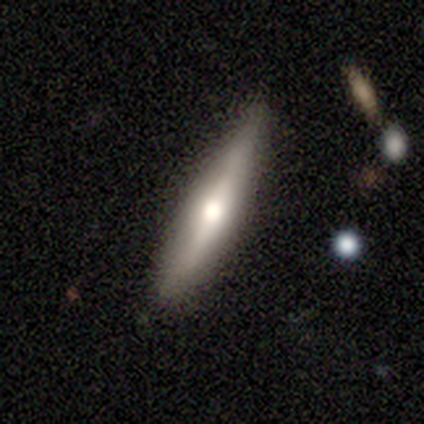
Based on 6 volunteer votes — Smooth or featured? smooth (67%)
How rounded? cigar-shaped (75%)
Merging? none (100%)